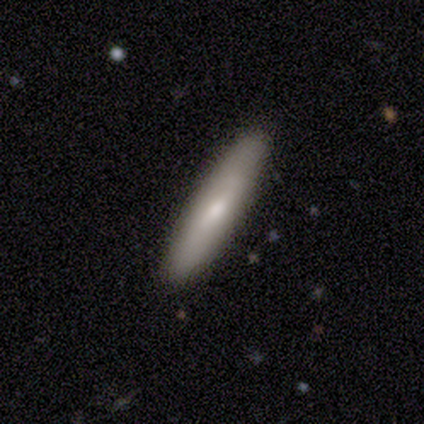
This appears to be a smooth galaxy with no disk features (100%) that is cigar-shaped (100%). Merging: none (100%).